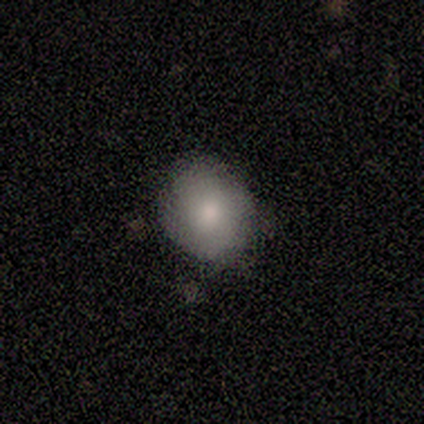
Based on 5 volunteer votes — smooth_or_featured: smooth (p=0.60) [alt: featured or disk p=0.40]
how_rounded: round (p=1.00)
merging: none (p=0.80) [alt: minor disturbance p=0.20]